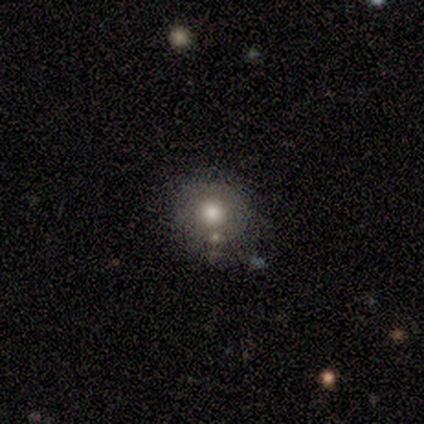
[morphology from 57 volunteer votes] smooth 72%, star or artifact 19%, featured or disk 9%. Down the decision tree: how rounded — round (88%); merging — none (80%).